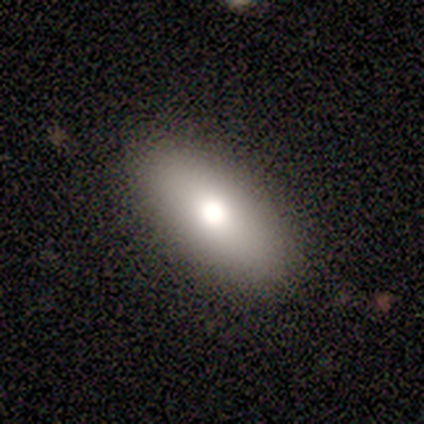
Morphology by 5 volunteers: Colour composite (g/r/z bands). It shows a smooth galaxy with no disk features (80%) that is in between round and cigar-shaped (75%). Merging: none (80%).